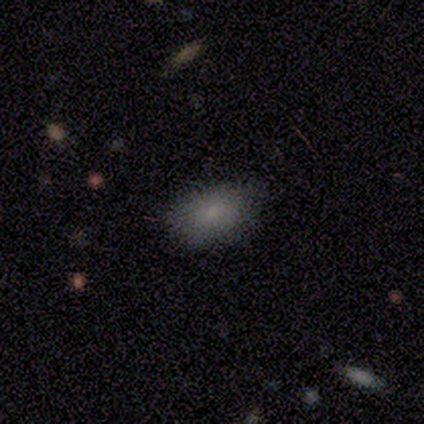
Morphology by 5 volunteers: Q: Smooth or featured?
A: smooth (100%)
Q: How rounded?
A: in between (100%)
Q: Merging?
A: none (80%); runner-up: minor disturbance (20%)